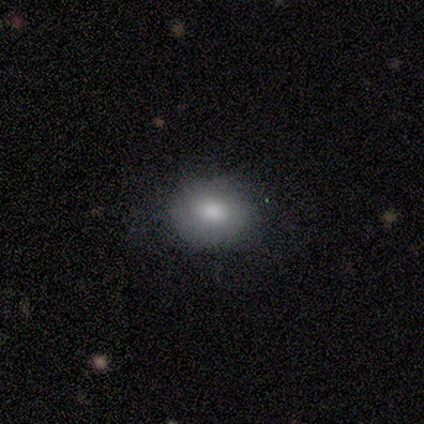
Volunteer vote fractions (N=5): Smooth or featured? smooth (100%)
How rounded? round (100%)
Merging? minor disturbance (60%)